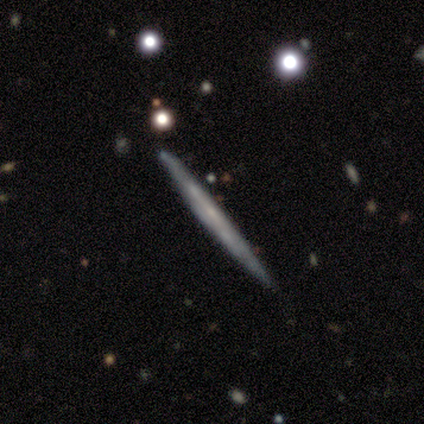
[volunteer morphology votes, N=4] Smooth or featured? 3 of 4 (75%) said featured or disk. Edge-on disk? 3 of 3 (100%) said yes. Edge-on bulge? 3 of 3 (100%) said none. Merging? 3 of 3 (100%) said none.